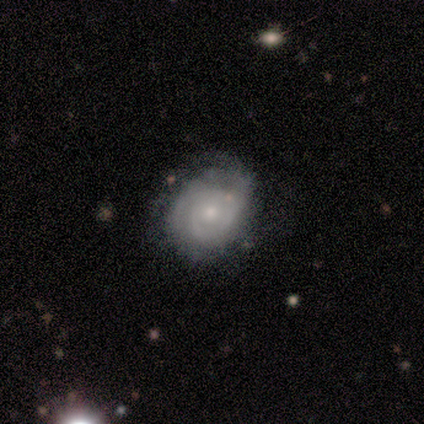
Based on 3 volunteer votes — Volunteers were most divided on "spiral arm count" (2-way tie): 2: 50%, 3: 50%, 1: 0%, 4: 0%, more than 4: 0%, can't tell: 0%; "bulge size" (2-way tie): moderate: 50%, small: 50%, dominant: 0%, large: 0%, none: 0%. More confident: edge-on disk — no (100%); bar — no (100%); spiral arms — yes (100%); spiral winding — tight (100%); merging — minor disturbance (100%); smooth or featured — featured or disk (67%).